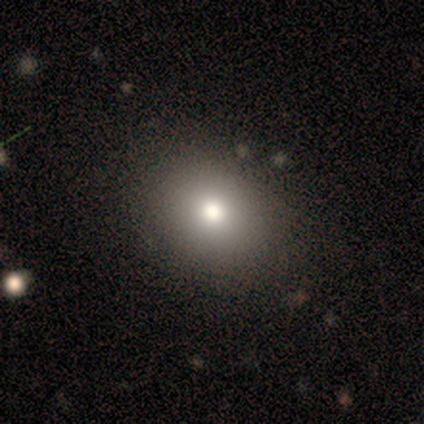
smooth_or_featured: smooth (p=1.00)
how_rounded: in between (p=0.60) [alt: round p=0.40]
merging: none (p=1.00)